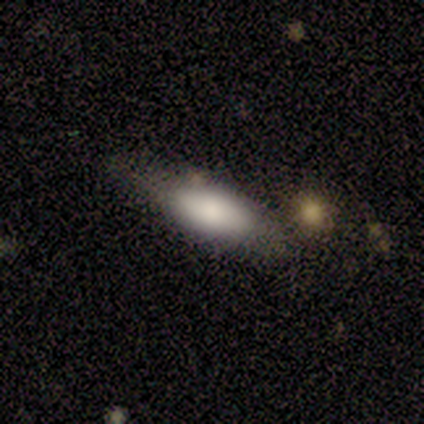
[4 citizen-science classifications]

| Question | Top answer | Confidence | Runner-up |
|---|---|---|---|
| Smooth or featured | smooth | 75% | featured or disk (25%) |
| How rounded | in between | 100% | — |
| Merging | none | 50% | minor disturbance (25%) |